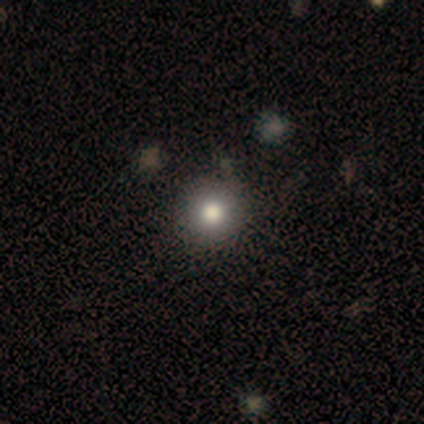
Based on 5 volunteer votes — Smooth or featured?
  - smooth: 100% *
  - featured or disk: 0%
  - star or artifact: 0%
How rounded?
  - round: 100% *
  - in between: 0%
  - cigar-shaped: 0%
Merging?
  - none: 100% *
  - minor disturbance: 0%
  - major disturbance: 0%
  - merger: 0%